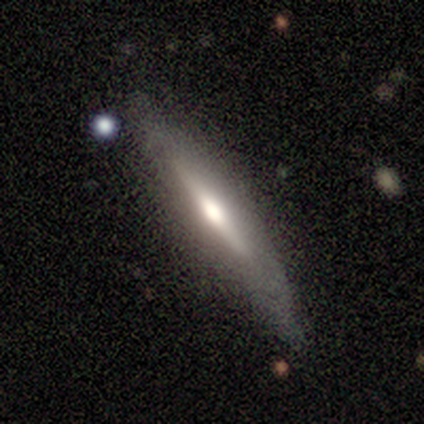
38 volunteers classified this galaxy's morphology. This appears to be a featured or disk galaxy (68%) viewed edge-on (81%) with a rounded central bulge (57%). Merging: none (70%).